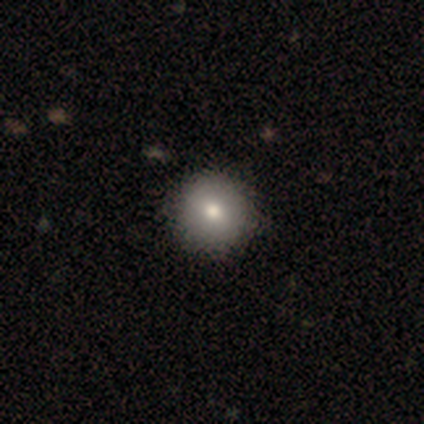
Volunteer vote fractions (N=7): smooth 86%, featured or disk 14%, star or artifact 0%. Down the decision tree: how rounded — round (100%); merging — none (86%).